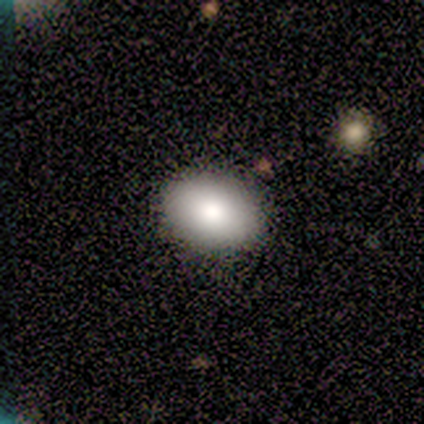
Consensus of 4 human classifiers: This appears to be a smooth galaxy with no disk features (50%, tied with featured or disk) that is in between round and cigar-shaped (100%). Merging: none (100%).